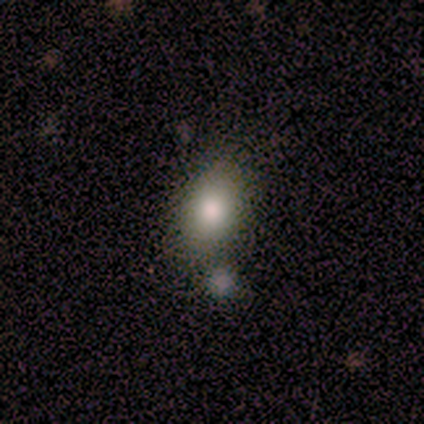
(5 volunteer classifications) Morphology: type=smooth (80%); roundness=in between (100%); merging=none (60%).